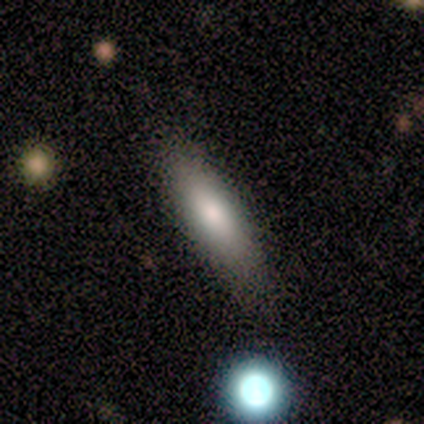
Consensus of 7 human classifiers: smooth-or-featured: smooth: 86% | featured or disk: 14% | star or artifact: 0%
  how-rounded: in between: 83% | cigar-shaped: 17% | round: 0%
  merging: none: 71% | minor disturbance: 29% | major disturbance: 0% | merger: 0%